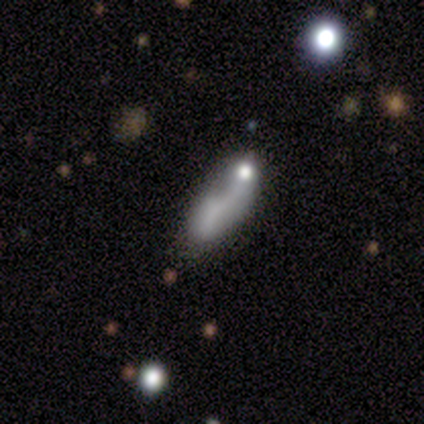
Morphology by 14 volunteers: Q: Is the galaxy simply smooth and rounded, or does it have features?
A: smooth — 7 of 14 (50%).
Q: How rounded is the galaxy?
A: in between — 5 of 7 (71%).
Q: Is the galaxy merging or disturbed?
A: minor disturbance — 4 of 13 (31%, tied with major disturbance).